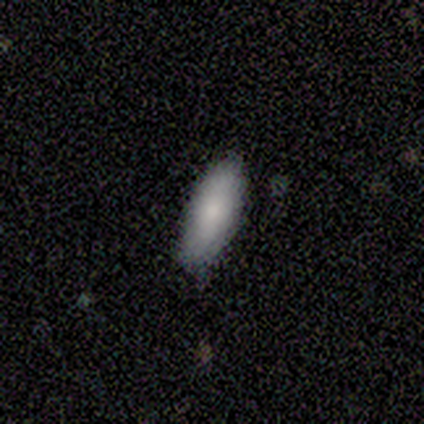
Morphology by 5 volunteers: A smooth galaxy with no disk features (60%) that is in between round and cigar-shaped (67%). Merging: none (100%).